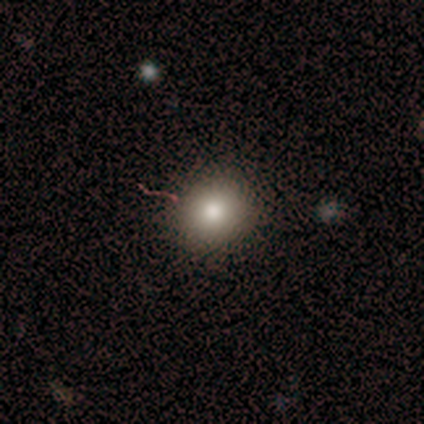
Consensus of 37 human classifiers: smooth-or-featured: smooth: 92% | star or artifact: 5% | featured or disk: 3%
  how-rounded: round: 91% | in between: 9% | cigar-shaped: 0%
  merging: none: 86% | minor disturbance: 9% | major disturbance: 3% | merger: 3%